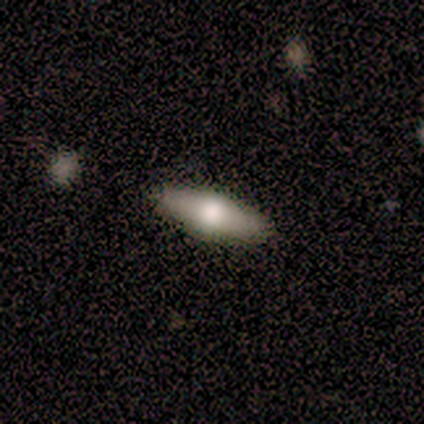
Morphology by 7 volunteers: smooth 43% (tied), featured or disk 43% (tied), star or artifact 14%. Down the decision tree: how rounded — in between (67%); merging — none (100%).